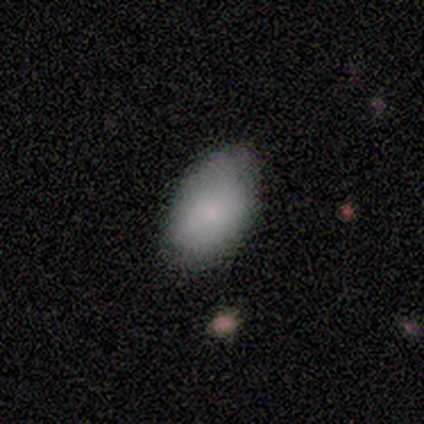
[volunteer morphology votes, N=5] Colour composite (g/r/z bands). It shows a smooth galaxy with no disk features (100%) that is in between round and cigar-shaped (80%). Merging: none (100%).